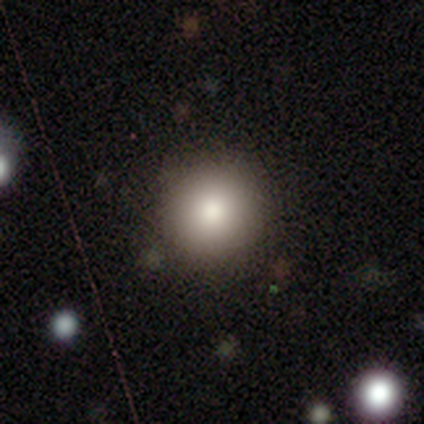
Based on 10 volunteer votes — Q: Smooth or featured?
A: smooth (70%); runner-up: star or artifact (20%)
Q: How rounded?
A: round (100%)
Q: Merging?
A: none (100%)